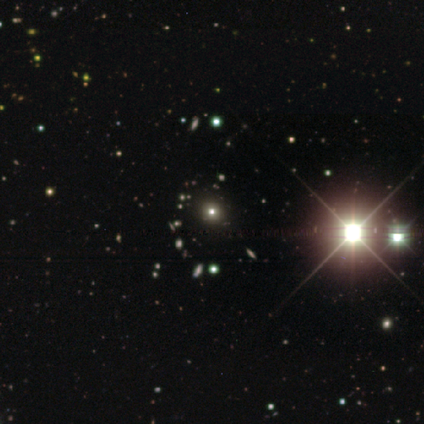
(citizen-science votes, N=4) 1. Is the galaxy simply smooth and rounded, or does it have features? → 75% star or artifact, 25% smooth, 0% featured or disk.